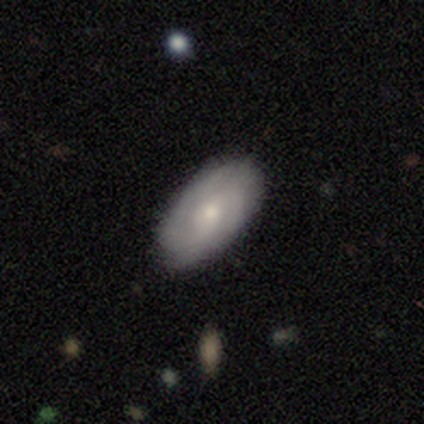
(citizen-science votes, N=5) This appears to be a featured or disk galaxy (60%) with no bar (67%), tight (67%) spiral arms (100%) and a moderate central bulge (67%). Merging: none (67%).